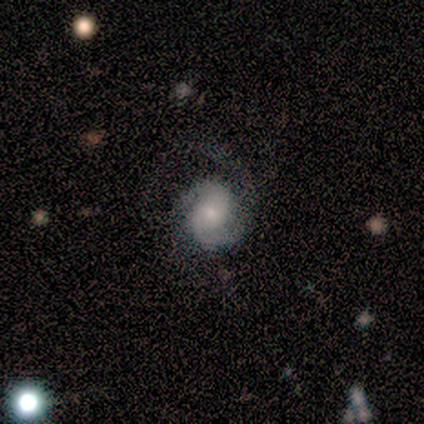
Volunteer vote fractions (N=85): Q: Smooth or featured?
A: featured or disk (82%); runner-up: smooth (12%)
Q: Edge-on disk?
A: no (100%)
Q: Bar?
A: no (74%); runner-up: weak (21%)
Q: Spiral arms?
A: yes (99%); runner-up: no (1%)
Q: Spiral winding?
A: medium (49%); runner-up: tight (32%)
Q: Spiral arm count?
A: 2 (74%); runner-up: 1 (20%)
Q: Bulge size?
A: moderate (40%); tied with: small (40%)
Q: Merging?
A: none (52%); runner-up: major disturbance (38%)